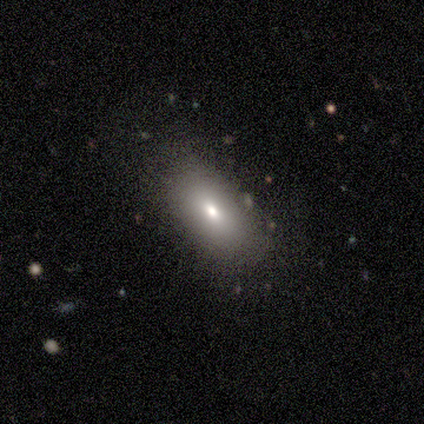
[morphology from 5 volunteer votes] type=featured or disk (60%); edge-on=no (100%); bar=weak (67%); spiral arms=no (100%); bulge=small (67%); merging=none (80%).